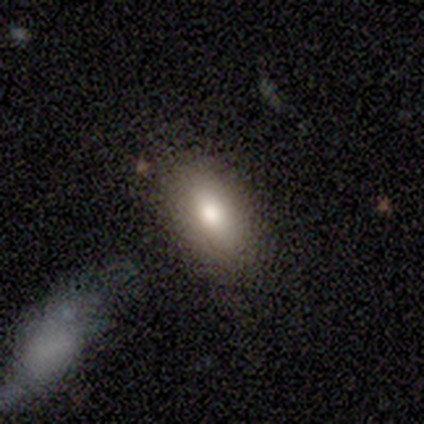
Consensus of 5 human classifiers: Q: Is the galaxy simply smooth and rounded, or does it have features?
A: smooth — 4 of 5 (80%).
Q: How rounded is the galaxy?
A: in between — 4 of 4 (100%).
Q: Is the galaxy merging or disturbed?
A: none — 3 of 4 (75%).